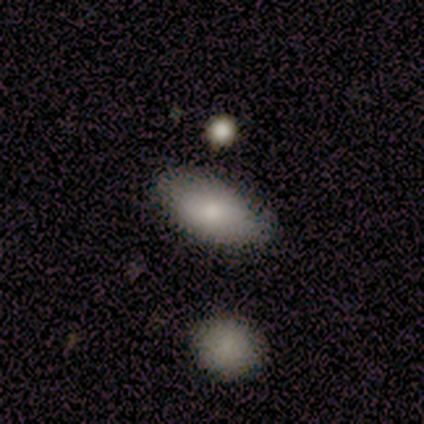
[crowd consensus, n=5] Volunteers were most divided on "how rounded": in between: 80%, cigar-shaped: 20%, round: 0%. More confident: smooth or featured — smooth (100%); merging — none (100%).